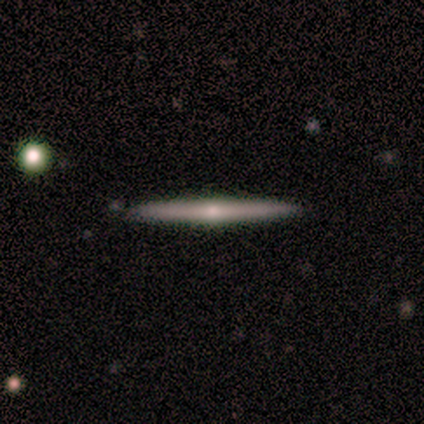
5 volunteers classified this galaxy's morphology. A featured or disk galaxy (80%) viewed edge-on (100%) with no central bulge (50%, tied with rounded).

Vote fractions:
- Smooth or featured? featured or disk: 80% / smooth: 20% / star or artifact: 0%
- Edge-on disk? yes: 100% / no: 0%
- Edge-on bulge? none: 50% (tied) / rounded: 50% (tied) / boxy: 0%
- Merging? none: 100% / minor disturbance: 0% / major disturbance: 0% / merger: 0%